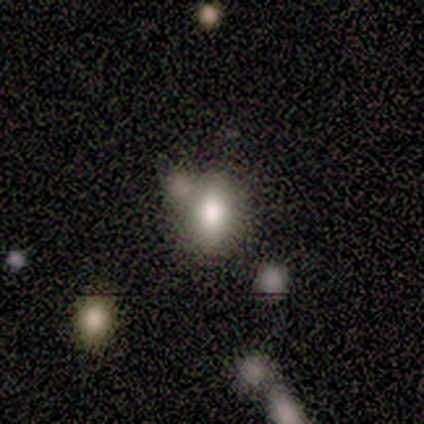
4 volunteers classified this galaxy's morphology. Smooth or featured? smooth (100%)
How rounded? in between (100%)
Merging? none (75%)